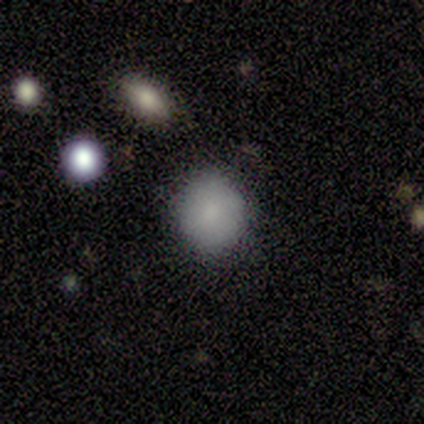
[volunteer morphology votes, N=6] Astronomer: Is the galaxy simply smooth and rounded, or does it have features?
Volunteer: smooth — 100%.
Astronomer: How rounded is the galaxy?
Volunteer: round — 83%.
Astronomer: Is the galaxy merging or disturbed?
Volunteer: none — 100%.